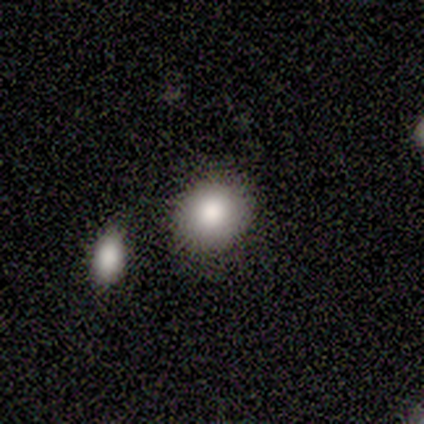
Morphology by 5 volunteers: Smooth or featured? 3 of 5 (60%) said star or artifact.